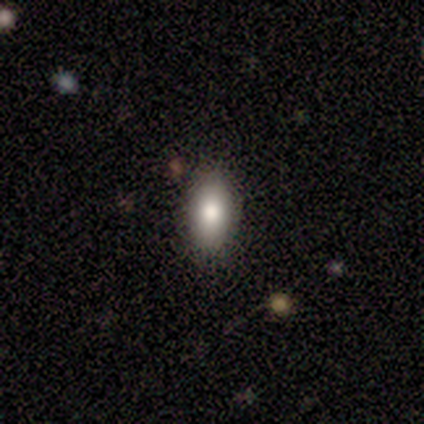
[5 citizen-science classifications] A smooth galaxy with no disk features (80%) that is in between round and cigar-shaped (75%).

Vote fractions:
- Smooth or featured? smooth: 80% / star or artifact: 20% / featured or disk: 0%
- How rounded? in between: 75% / round: 25% / cigar-shaped: 0%
- Merging? none: 100% / minor disturbance: 0% / major disturbance: 0% / merger: 0%